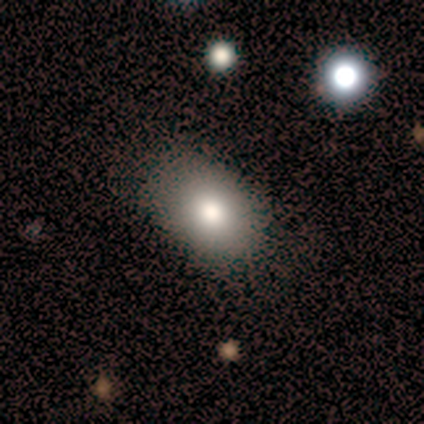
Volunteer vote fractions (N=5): Smooth or featured?
  - smooth: 100% *
  - featured or disk: 0%
  - star or artifact: 0%
How rounded?
  - in between: 80% *
  - round: 20%
  - cigar-shaped: 0%
Merging?
  - none: 100% *
  - minor disturbance: 0%
  - major disturbance: 0%
  - merger: 0%